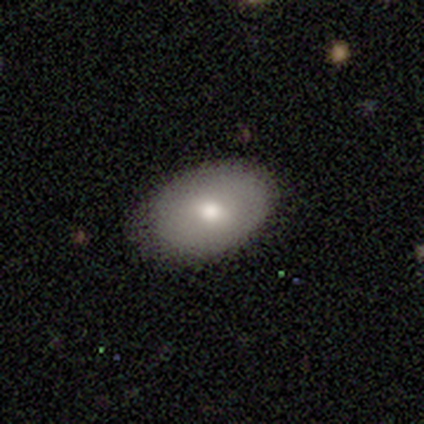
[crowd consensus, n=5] smooth-or-featured: smooth: 60% | featured or disk: 40% | star or artifact: 0%
  how-rounded: in between: 67% | round: 33% | cigar-shaped: 0%
  merging: none: 80% | minor disturbance: 20% | major disturbance: 0% | merger: 0%